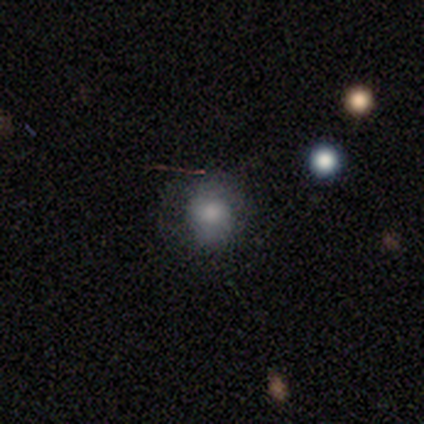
Smooth or featured?
  - smooth: 80% *
  - featured or disk: 20%
  - star or artifact: 0%
How rounded?
  - round: 88% *
  - in between: 12%
  - cigar-shaped: 0%
Merging?
  - none: 50% *
  - minor disturbance: 40%
  - major disturbance: 10%
  - merger: 0%